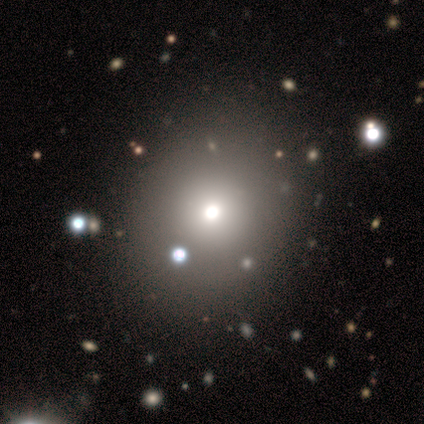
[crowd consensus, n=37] This appears to be a smooth galaxy with no disk features (49%) that is round (89%). Merging: none (80%).